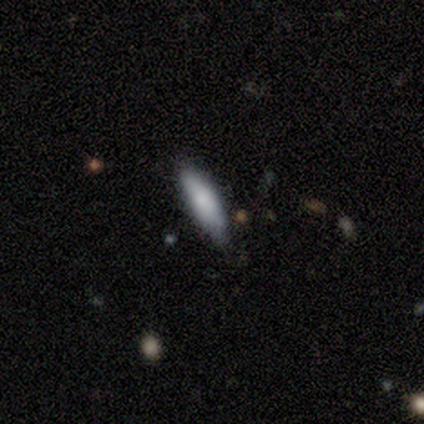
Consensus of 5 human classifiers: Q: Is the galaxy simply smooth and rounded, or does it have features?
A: smooth — 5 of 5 (100%).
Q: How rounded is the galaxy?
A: cigar-shaped — 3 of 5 (60%).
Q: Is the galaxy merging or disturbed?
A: none — 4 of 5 (80%).